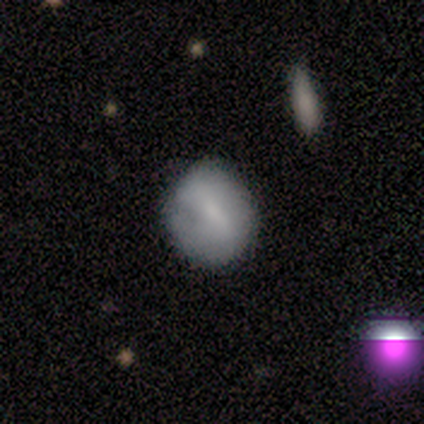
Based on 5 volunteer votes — Smooth or featured: smooth — 80% (featured or disk — 20%)
How rounded: round — 50% (tied with in between — 50%)
Merging: none — 60% (major disturbance — 20%)